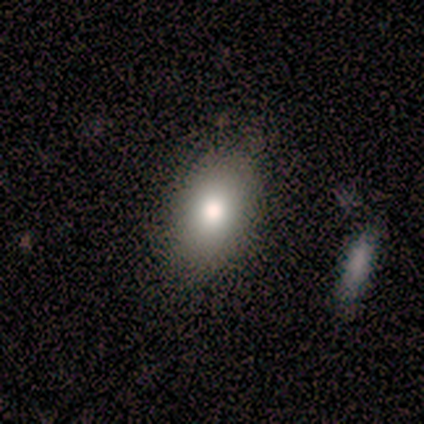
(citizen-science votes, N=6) This appears to be a smooth galaxy with no disk features (83%) that is in between round and cigar-shaped (100%). Merging: none (80%).